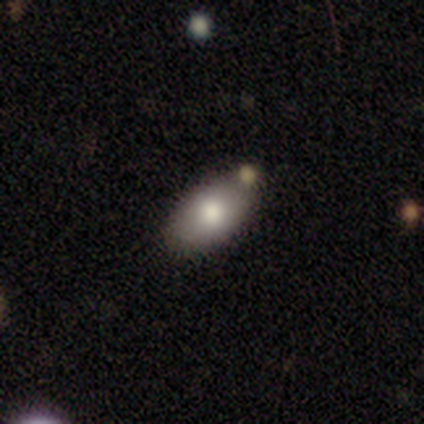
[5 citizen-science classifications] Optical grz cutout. It shows a smooth galaxy with no disk features (80%) that is in between round and cigar-shaped (100%). Merging: none (80%).